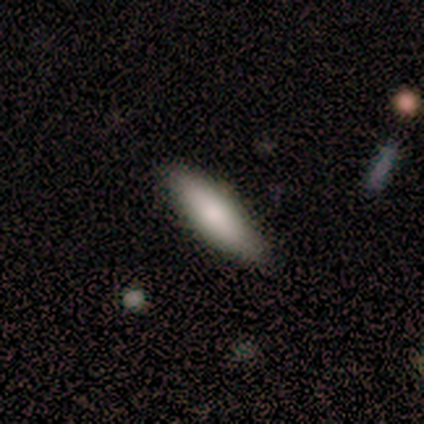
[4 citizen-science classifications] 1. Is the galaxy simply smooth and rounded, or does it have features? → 50% smooth (tied), 50% featured or disk (tied), 0% star or artifact.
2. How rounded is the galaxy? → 50% in between (tied), 50% cigar-shaped (tied), 0% round.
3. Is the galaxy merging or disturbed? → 100% none, 0% minor disturbance, 0% major disturbance, 0% merger.